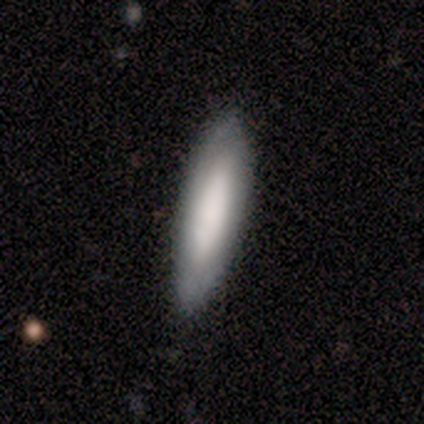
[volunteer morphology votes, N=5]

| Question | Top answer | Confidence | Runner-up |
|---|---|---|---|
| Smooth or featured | featured or disk | 60% | smooth (40%) |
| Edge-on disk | no | 67% | yes (33%) |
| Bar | no | 100% | — |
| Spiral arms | no | 100% | — |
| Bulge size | dominant | 50% | tied: large (50%) |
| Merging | none | 80% | minor disturbance (20%) |